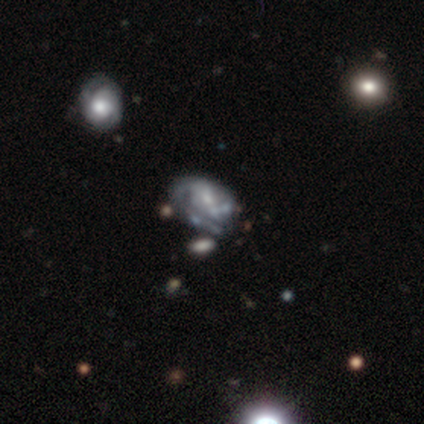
smooth-or-featured: featured or disk: 81% | smooth: 13% | star or artifact: 6%
  disk-edge-on: no: 96% | yes: 4%
    bar: no: 56% | weak: 35% | strong: 8%
    has-spiral-arms: yes: 75% | no: 25%
      spiral-winding: tight: 44% | medium: 39% | loose: 17%
      spiral-arm-count: 2: 39% | can't tell: 31% | 1: 22% | 3: 8% | 4: 0% | more than 4: 0%
    bulge-size: small: 54% | moderate: 31% | large: 8% | none: 6% | dominant: 0%
  merging: none: 36% | minor disturbance: 29% | major disturbance: 22% | merger: 12%